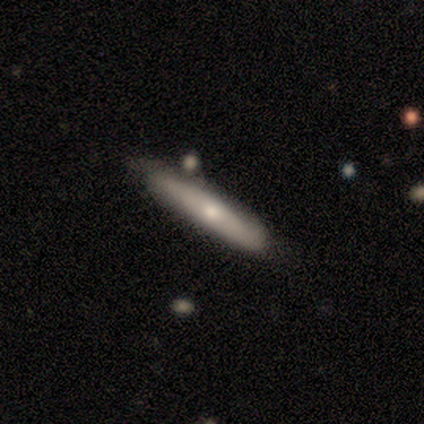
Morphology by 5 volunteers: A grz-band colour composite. It shows a smooth galaxy with no disk features (60%) that is cigar-shaped (100%). Merging: none (60%).